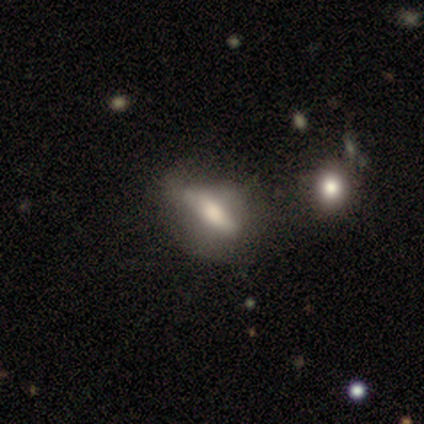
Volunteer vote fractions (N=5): smooth-or-featured: featured or disk: 60% | smooth: 40% | star or artifact: 0%
  disk-edge-on: yes: 67% | no: 33%
    edge-on-bulge: none: 50% (tied) | rounded: 50% (tied) | boxy: 0%
  merging: major disturbance: 40% | none: 20% | minor disturbance: 20% | merger: 20%